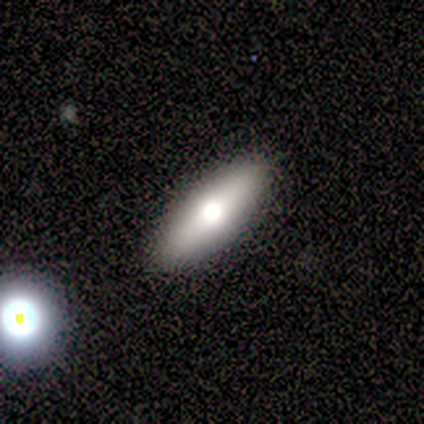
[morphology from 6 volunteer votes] Smooth or featured? smooth (50%)
How rounded? in between (67%)
Merging? none (75%)